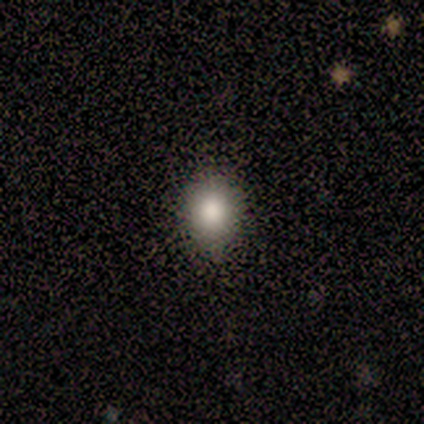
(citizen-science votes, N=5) Smooth or featured? 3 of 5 (60%) said smooth. How rounded? 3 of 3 (100%) said round. Merging? 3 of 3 (100%) said none.